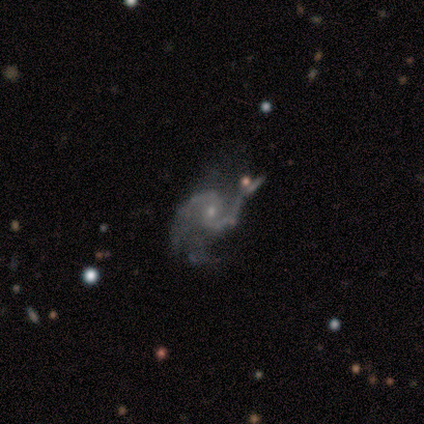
featured or disk 100%, smooth 0%, star or artifact 0%. Down the decision tree: edge-on disk — no (100%); bar — weak (100%); spiral arms — yes (100%); spiral arm count — 2 (100%); spiral winding — loose (60%); bulge size — small (80%); merging — none (40%, tied with minor disturbance).